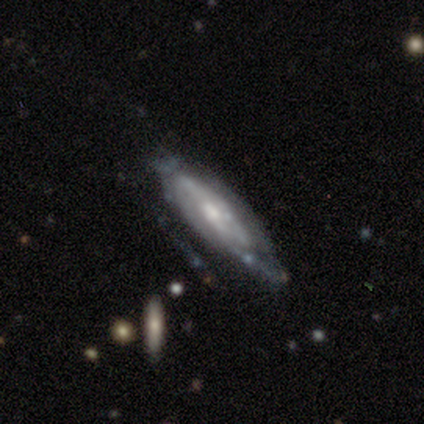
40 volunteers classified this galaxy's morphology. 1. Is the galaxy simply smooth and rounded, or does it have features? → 78% featured or disk, 15% smooth, 8% star or artifact.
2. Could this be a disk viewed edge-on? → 71% no, 29% yes.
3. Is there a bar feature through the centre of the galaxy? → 45% weak (tied), 45% no (tied), 9% strong.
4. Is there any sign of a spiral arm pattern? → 82% yes, 18% no.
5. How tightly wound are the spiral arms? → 50% tight, 44% medium, 6% loose.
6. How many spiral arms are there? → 56% can't tell, 22% 2, 6% 1, 6% 3, 6% 4, 6% more than 4.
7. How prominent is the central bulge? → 59% moderate, 27% small, 9% none, 5% large, 0% dominant.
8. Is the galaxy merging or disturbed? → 43% none, 24% minor disturbance, 24% major disturbance, 8% merger.